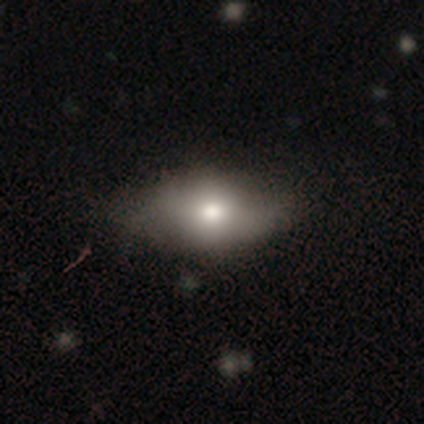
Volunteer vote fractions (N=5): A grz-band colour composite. It shows a smooth galaxy with no disk features (60%) that is in between round and cigar-shaped (100%). Merging: none (80%).